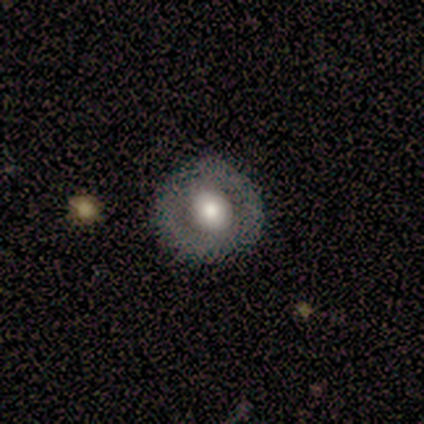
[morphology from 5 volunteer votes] Smooth or featured: smooth — 60% (featured or disk — 40%)
How rounded: round — 100%
Merging: none — 100%